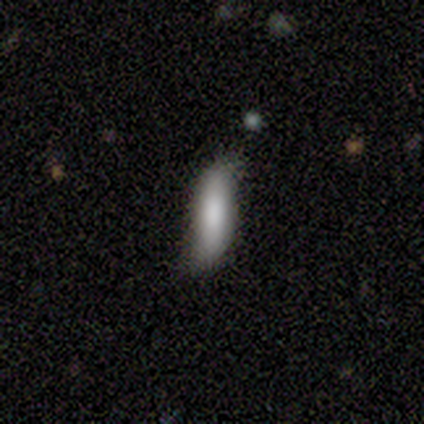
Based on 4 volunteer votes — This is possibly a smooth galaxy (50%). How rounded: possibly in between (50%, tied with cigar-shaped). Merging: likely minor disturbance (67%).